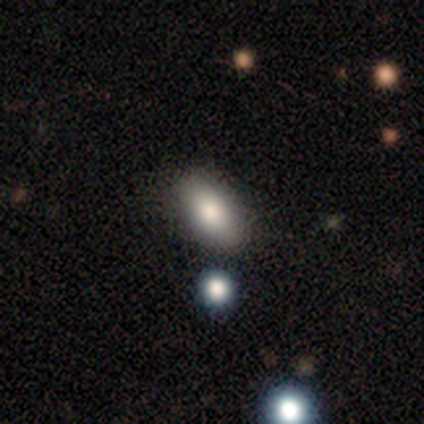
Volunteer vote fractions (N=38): Smooth or featured: smooth — 79% (star or artifact — 16%)
How rounded: in between — 87% (round — 7%)
Merging: none — 91% (minor disturbance — 6%)